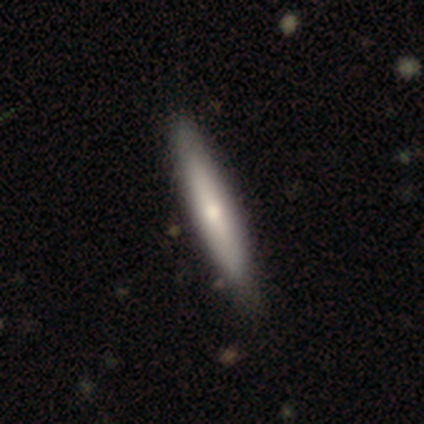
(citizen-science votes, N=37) Overall: smooth (68%; featured or disk 30%). How rounded: cigar-shaped (96%). Merging: none (69%).